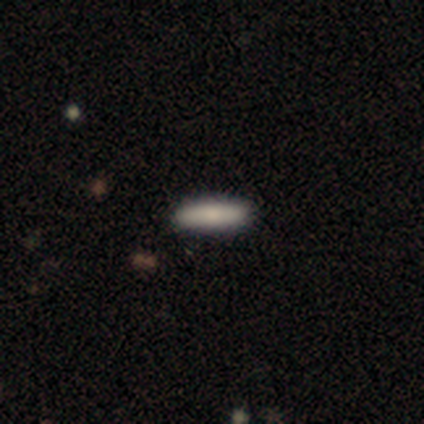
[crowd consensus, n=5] Smooth or featured: smooth — 80% (featured or disk — 20%)
How rounded: cigar-shaped — 75% (in between — 25%)
Merging: none — 100%